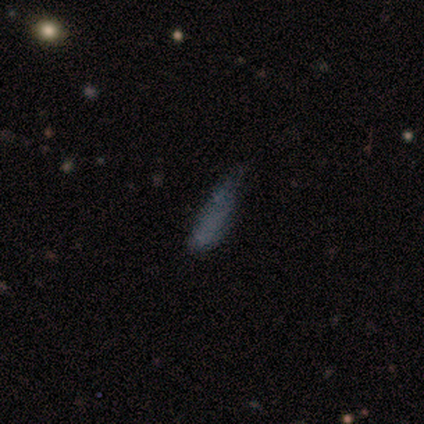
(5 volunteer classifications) smooth-or-featured: smooth: 80% | featured or disk: 20% | star or artifact: 0%
  how-rounded: cigar-shaped: 75% | in between: 25% | round: 0%
  merging: minor disturbance: 60% | none: 40% | major disturbance: 0% | merger: 0%